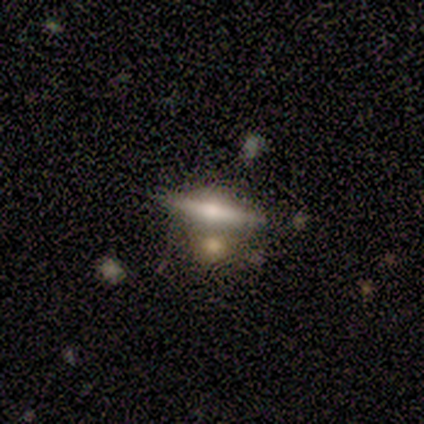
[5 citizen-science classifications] This appears to be a smooth galaxy with no disk features (60%) that is in between round and cigar-shaped (67%). Merging: none (40%, tied with merger).